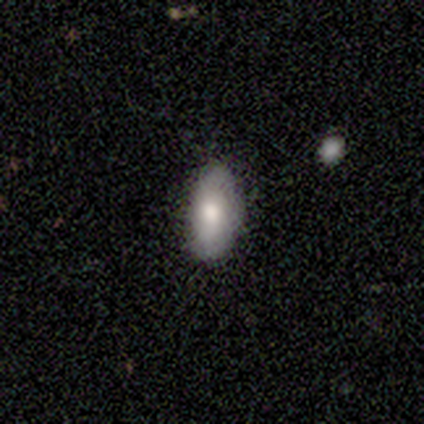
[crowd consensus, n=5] Volunteers were most divided on "smooth or featured": featured or disk: 60%, smooth: 40%, star or artifact: 0%. More confident: edge-on disk — no (100%); merging — none (100%); bar — no (67%); spiral arms — no (67%); bulge size — moderate (67%).